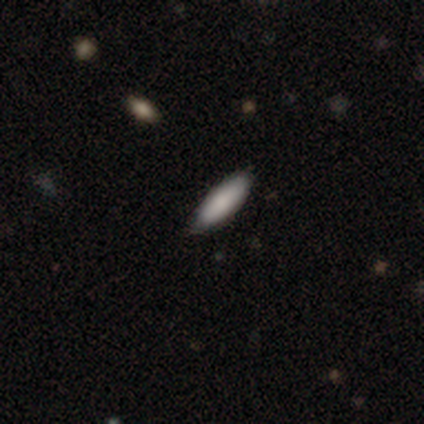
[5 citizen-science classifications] Smooth or featured? smooth (100%)
How rounded? in between (80%)
Merging? none (100%)